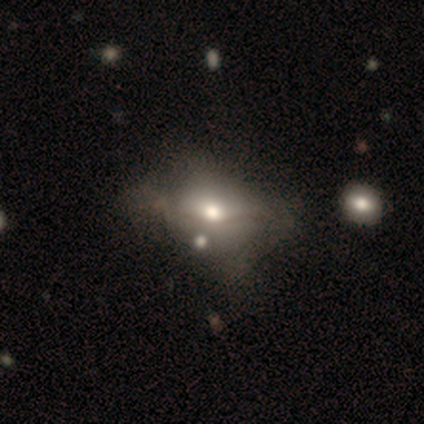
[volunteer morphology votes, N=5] Overall: featured or disk (60%; star or artifact 40%). Edge-on disk: no (67%; yes 33%). Bar: no (100%). Spiral arms: no (100%). Bulge size: large (50%, tied with moderate). Merging: none (33%, tied with minor disturbance and major disturbance).